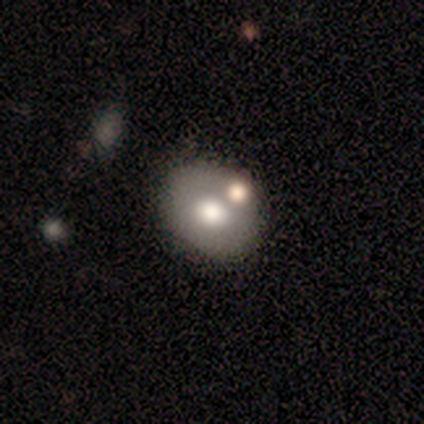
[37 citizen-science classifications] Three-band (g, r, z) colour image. It shows a smooth galaxy with no disk features (59%) that is in between round and cigar-shaped (55%). Merging: none (68%).